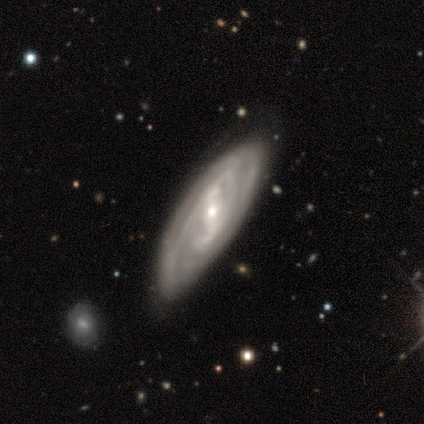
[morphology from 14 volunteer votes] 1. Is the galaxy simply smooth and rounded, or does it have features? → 64% featured or disk, 21% smooth, 14% star or artifact.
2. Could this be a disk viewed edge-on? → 100% no, 0% yes.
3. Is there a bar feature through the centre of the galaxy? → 44% strong (tied), 44% weak (tied), 11% no.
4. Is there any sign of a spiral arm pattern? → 89% yes, 11% no.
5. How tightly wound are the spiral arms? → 50% tight, 38% loose, 12% medium.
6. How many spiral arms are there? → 38% 2 (tied), 38% can't tell (tied), 12% 3, 12% 4, 0% 1, 0% more than 4.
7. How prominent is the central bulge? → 67% small, 33% moderate, 0% dominant, 0% large, 0% none.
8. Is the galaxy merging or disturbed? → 75% none, 17% minor disturbance, 8% major disturbance, 0% merger.